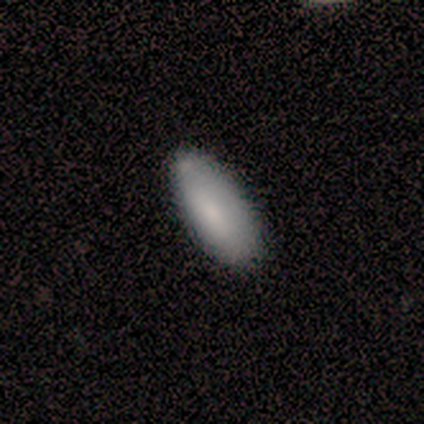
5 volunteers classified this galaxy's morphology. type=smooth (100%); roundness=in between (100%); merging=none (100%).